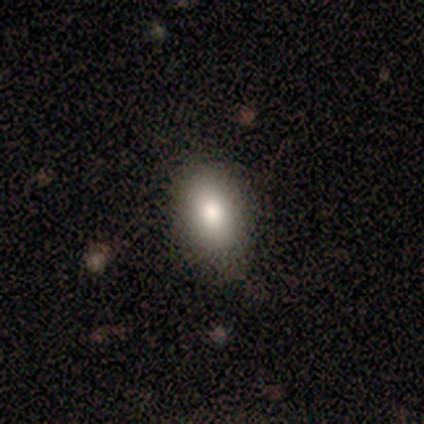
Smooth or featured? smooth (71%)
How rounded? in between (85%)
Merging? none (65%)